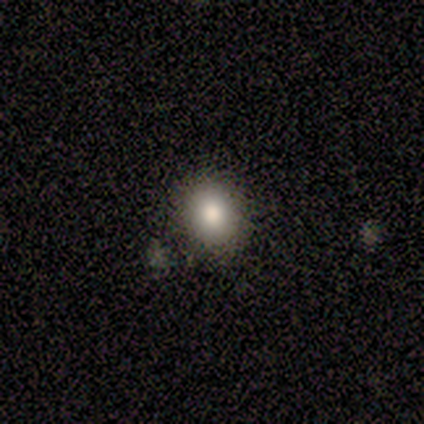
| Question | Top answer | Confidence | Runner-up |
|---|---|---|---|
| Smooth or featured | smooth | 33% | tied: featured or disk (33%), star or artifact (33%) |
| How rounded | round | 100% | — |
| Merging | none | 100% | — |